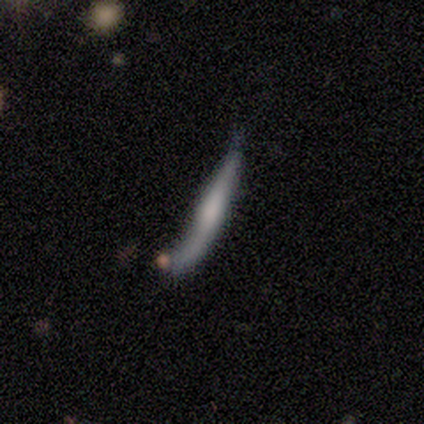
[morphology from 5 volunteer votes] smooth-or-featured: smooth: 60% | featured or disk: 20% | star or artifact: 20%
  how-rounded: cigar-shaped: 100% | round: 0% | in between: 0%
  merging: minor disturbance: 50% | major disturbance: 25% | merger: 25% | none: 0%